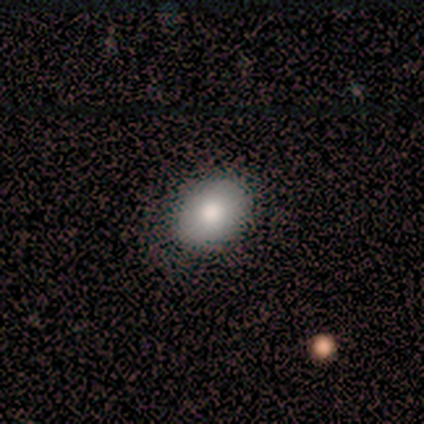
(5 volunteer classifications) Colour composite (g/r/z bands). It shows a smooth galaxy with no disk features (80%) that is in between round and cigar-shaped (75%). Merging: none (80%).